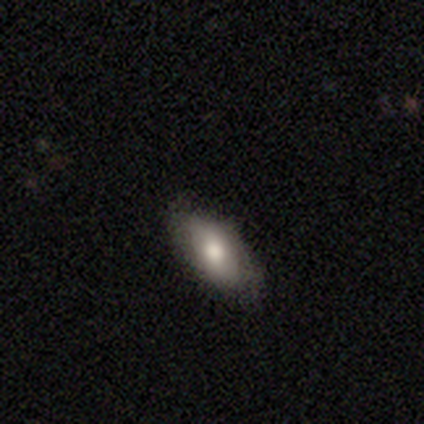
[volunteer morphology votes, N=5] Q: Smooth or featured?
A: smooth (80%); runner-up: featured or disk (20%)
Q: How rounded?
A: in between (75%); runner-up: cigar-shaped (25%)
Q: Merging?
A: none (100%)